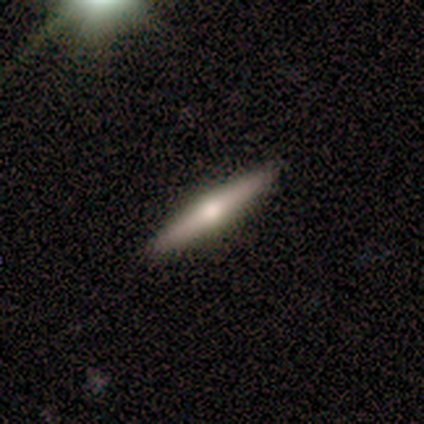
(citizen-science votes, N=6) Q: Smooth or featured?
A: featured or disk (67%); runner-up: smooth (33%)
Q: Edge-on disk?
A: yes (100%)
Q: Edge-on bulge?
A: rounded (100%)
Q: Merging?
A: none (100%)